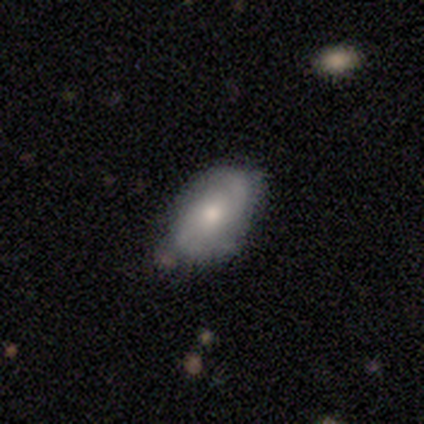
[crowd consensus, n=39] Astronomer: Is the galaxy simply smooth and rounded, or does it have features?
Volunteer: featured or disk — 62% (runner-up: smooth, 38%).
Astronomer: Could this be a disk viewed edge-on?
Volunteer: no — 100%.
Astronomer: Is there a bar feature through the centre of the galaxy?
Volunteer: no — 79%.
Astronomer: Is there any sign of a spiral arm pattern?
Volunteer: yes — 92%.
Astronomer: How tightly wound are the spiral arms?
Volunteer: medium — 45% (runner-up: tight, 27%).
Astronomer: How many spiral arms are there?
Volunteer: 2 — 82%.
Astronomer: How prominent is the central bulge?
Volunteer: moderate — 58% (runner-up: small, 38%).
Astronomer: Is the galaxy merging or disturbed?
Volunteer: none — 59% (runner-up: minor disturbance, 36%).